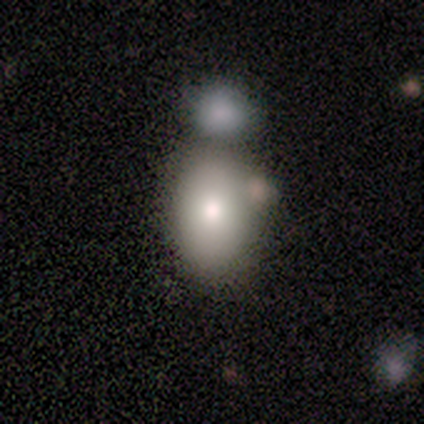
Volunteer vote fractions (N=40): smooth_or_featured: smooth (p=0.80) [alt: featured or disk p=0.15]
how_rounded: in between (p=0.94) [alt: round p=0.06]
merging: none (p=0.42) [alt: merger p=0.37]